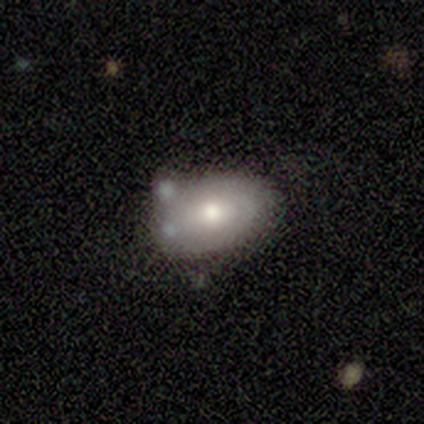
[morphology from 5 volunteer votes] smooth_or_featured: smooth (p=0.60) [alt: featured or disk p=0.20]
how_rounded: in between (p=1.00)
merging: none (p=0.75) [alt: minor disturbance p=0.25]